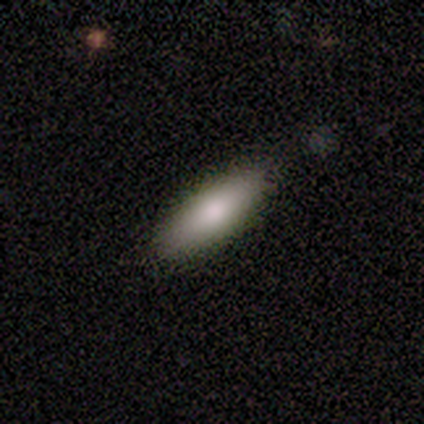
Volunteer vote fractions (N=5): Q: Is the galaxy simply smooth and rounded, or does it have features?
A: smooth — 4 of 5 (80%).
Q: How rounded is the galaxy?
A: in between — 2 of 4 (50%, tied with cigar-shaped).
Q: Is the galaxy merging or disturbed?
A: none — 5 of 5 (100%).